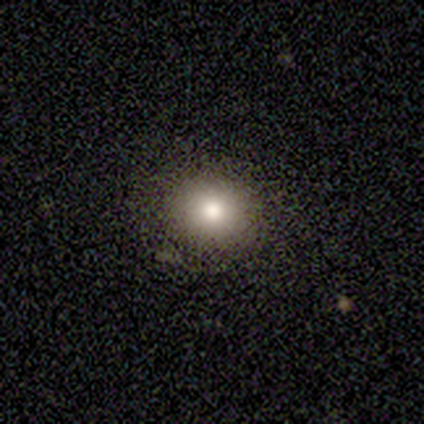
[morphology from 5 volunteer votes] Overall: smooth (100%). How rounded: round (100%). Merging: none (80%).